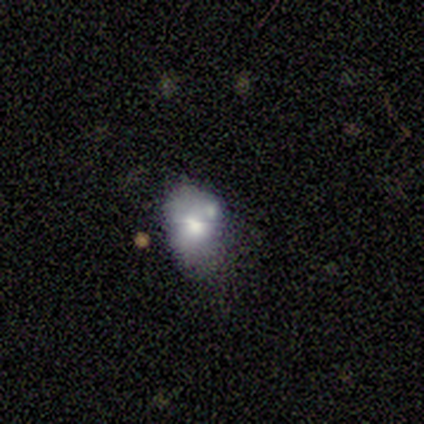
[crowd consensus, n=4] Smooth or featured? 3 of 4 (75%) said featured or disk. Edge-on disk? 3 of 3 (100%) said no. Bar? 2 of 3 (67%) said no. Spiral arms? 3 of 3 (100%) said no. Bulge size? 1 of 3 (33%, tied with large and moderate) said dominant. Merging? 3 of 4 (75%) said none.